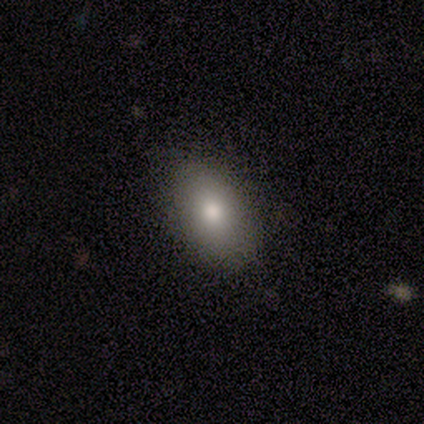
Smooth or featured? smooth (80%)
How rounded? in between (50%)
Merging? none (100%)